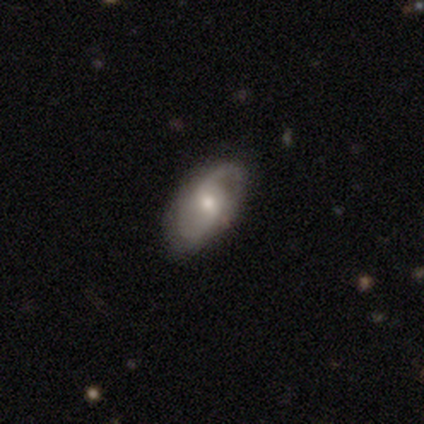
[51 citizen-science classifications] This is likely a featured or disk galaxy (69%). It is clearly not viewed edge-on (94%). Bar: possibly weak (58%). Spiral arm pattern: clearly yes (94%). Spiral arm count: clearly 2 (84%). Spiral winding: likely medium (61%). Central bulge: likely moderate (61%). Merging: likely none (61%).